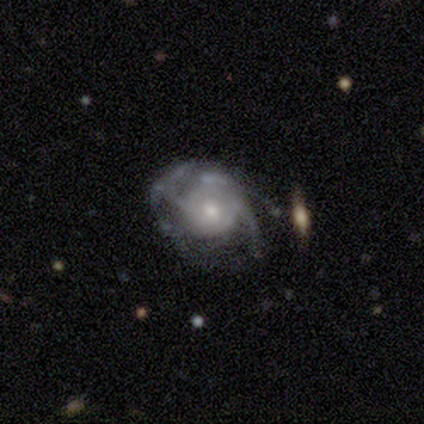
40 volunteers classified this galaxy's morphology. type=featured or disk (85%); edge-on=no (100%); bar=no (71%); spiral arms=yes (91%); winding=tight (42%); arm count=can't tell (52%); bulge=moderate (50%); merging=none (51%).